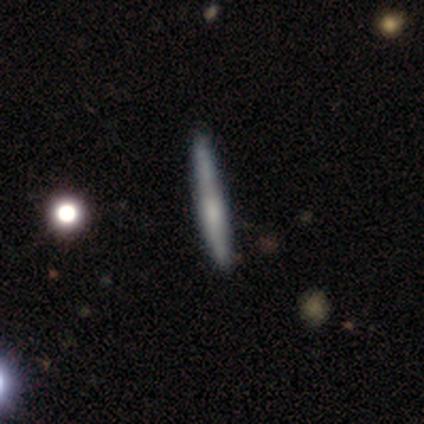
Smooth or featured: featured or disk — 60% (smooth — 40%)
Edge-on disk: yes — 100%
Edge-on bulge: none — 67% (rounded — 33%)
Merging: none — 60% (minor disturbance — 40%)